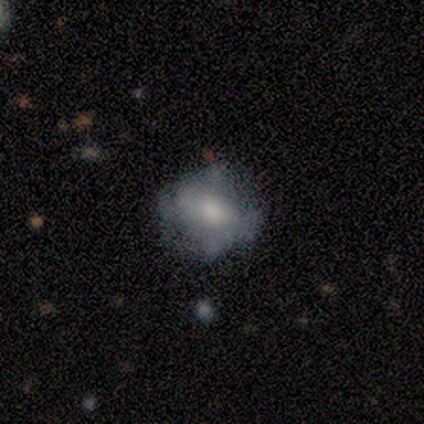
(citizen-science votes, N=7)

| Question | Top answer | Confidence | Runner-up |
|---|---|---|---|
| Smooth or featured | smooth | 57% | featured or disk (29%) |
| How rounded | round | 75% | in between (25%) |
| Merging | none | 50% | minor disturbance (33%) |